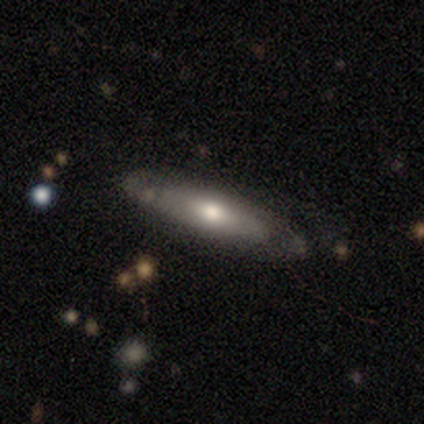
This is possibly a smooth galaxy (57%). How rounded: likely cigar-shaped (75%). Merging: clearly none (86%).